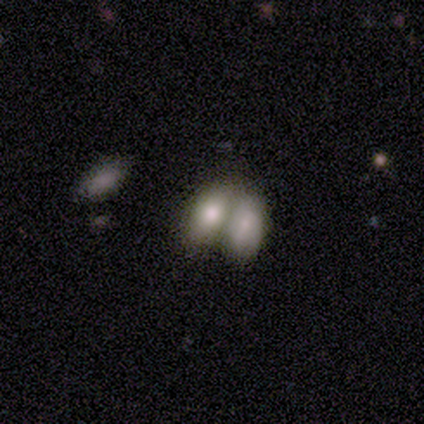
This appears to be a smooth galaxy with no disk features (67%) that is in between round and cigar-shaped (96%). Merging: merger (71%).